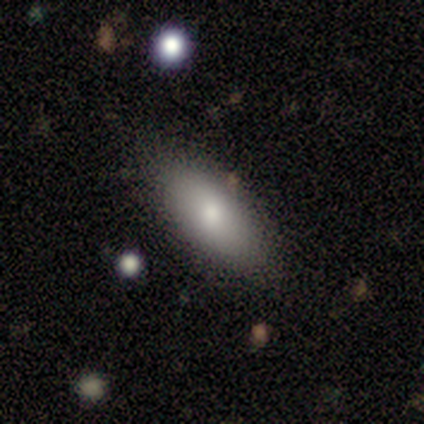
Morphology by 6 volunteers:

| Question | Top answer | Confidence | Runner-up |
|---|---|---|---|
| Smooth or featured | smooth | 83% | featured or disk (17%) |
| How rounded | in between | 100% | — |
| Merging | none | 100% | — |